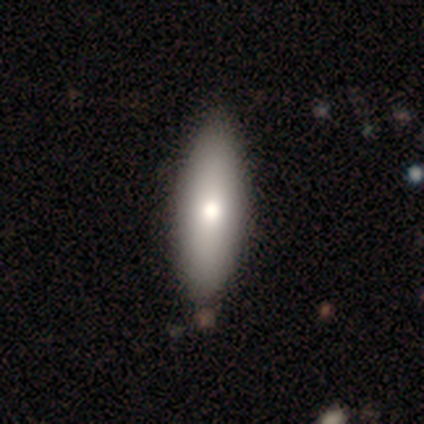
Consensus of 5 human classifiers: smooth-or-featured: smooth: 80% | featured or disk: 20% | star or artifact: 0%
  how-rounded: in between: 100% | round: 0% | cigar-shaped: 0%
  merging: none: 80% | minor disturbance: 20% | major disturbance: 0% | merger: 0%